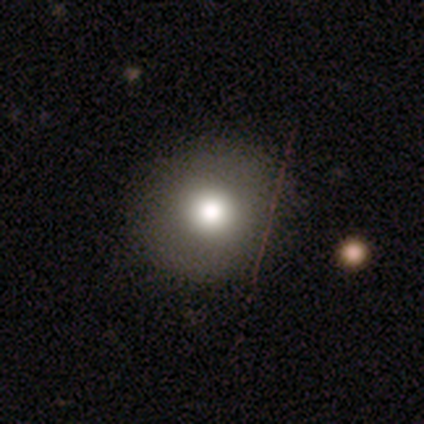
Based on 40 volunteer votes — A smooth galaxy with no disk features (62%) that is round (96%). Merging: none (68%).